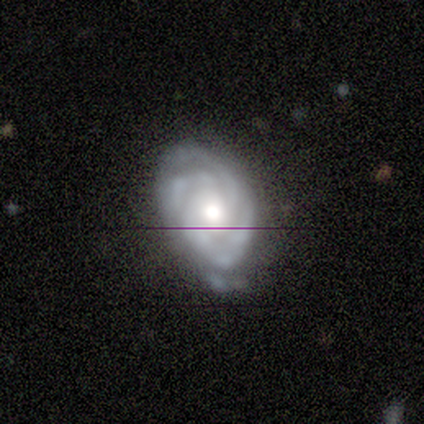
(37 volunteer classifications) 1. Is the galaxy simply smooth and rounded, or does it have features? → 78% featured or disk, 14% star or artifact, 8% smooth.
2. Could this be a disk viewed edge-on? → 100% no, 0% yes.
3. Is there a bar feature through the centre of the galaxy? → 97% no, 3% weak, 0% strong.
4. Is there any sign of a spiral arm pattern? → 97% yes, 3% no.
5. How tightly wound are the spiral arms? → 64% tight, 29% medium, 7% loose.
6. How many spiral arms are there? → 43% 3, 32% can't tell, 18% 2, 7% 4, 0% 1, 0% more than 4.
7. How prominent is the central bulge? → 76% moderate, 10% large, 7% small, 3% dominant, 3% none.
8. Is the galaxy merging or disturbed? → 66% none, 28% minor disturbance, 6% major disturbance, 0% merger.